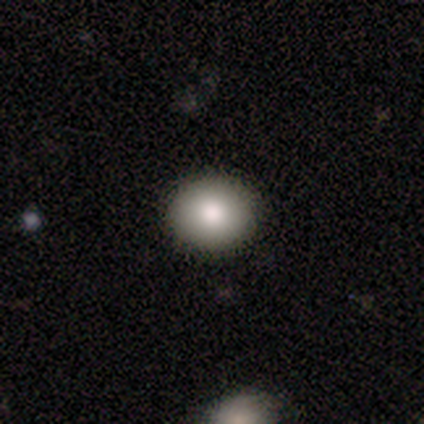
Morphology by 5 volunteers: A smooth galaxy with no disk features (100%) that is round (80%). Merging: none (100%).